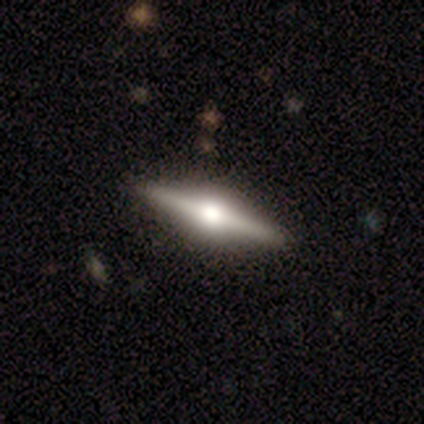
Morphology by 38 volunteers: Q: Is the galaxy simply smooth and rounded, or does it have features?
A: featured or disk — 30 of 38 (79%).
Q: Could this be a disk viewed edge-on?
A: yes — 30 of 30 (100%).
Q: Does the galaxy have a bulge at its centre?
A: rounded — 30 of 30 (100%).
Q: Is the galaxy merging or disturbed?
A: none — 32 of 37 (86%).